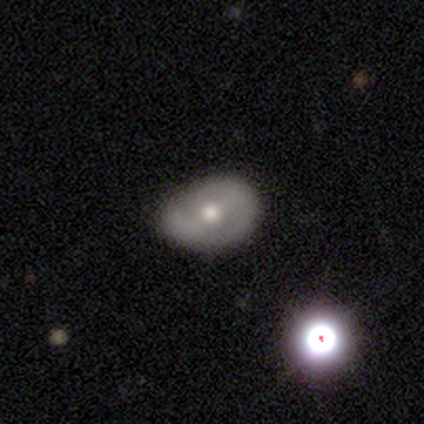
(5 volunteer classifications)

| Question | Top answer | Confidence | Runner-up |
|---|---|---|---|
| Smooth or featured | featured or disk | 60% | smooth (40%) |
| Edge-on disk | no | 100% | — |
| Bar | strong | 33% | tied: weak (33%), no (33%) |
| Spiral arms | yes | 100% | — |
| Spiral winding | loose | 67% | medium (33%) |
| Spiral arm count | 2 | 67% | 1 (33%) |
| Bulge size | moderate | 67% | small (33%) |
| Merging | none | 80% | minor disturbance (20%) |